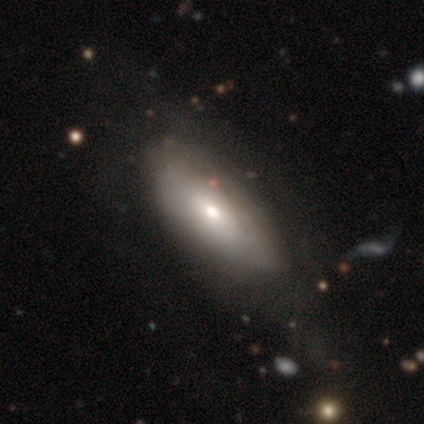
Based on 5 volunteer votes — Smooth or featured?
  - featured or disk: 60% *
  - smooth: 40%
  - star or artifact: 0%
Edge-on disk?
  - no: 100% *
  - yes: 0%
Bar?
  - no: 100% *
  - strong: 0%
  - weak: 0%
Spiral arms?
  - yes: 67% *
  - no: 33%
Spiral winding?
  - tight: 100% *
  - medium: 0%
  - loose: 0%
Spiral arm count?
  - can't tell: 100% *
  - 1: 0%
  - 2: 0%
  - 3: 0%
  - 4: 0%
  - more than 4: 0%
Bulge size?
  - small: 67% *
  - large: 33%
  - dominant: 0%
  - moderate: 0%
  - none: 0%
Merging?
  - none: 60% *
  - minor disturbance: 40%
  - major disturbance: 0%
  - merger: 0%